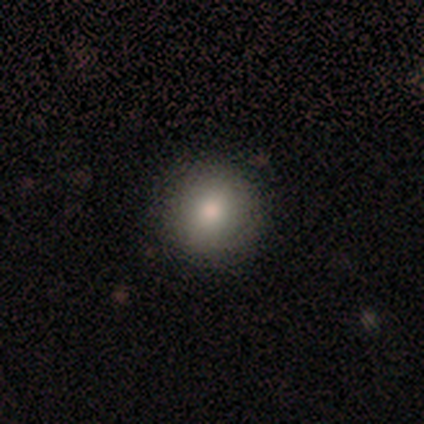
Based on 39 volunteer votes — A smooth galaxy with no disk features (85%) that is round (91%).

Vote fractions:
- Smooth or featured? smooth: 85% / featured or disk: 8% / star or artifact: 8%
- How rounded? round: 91% / in between: 9% / cigar-shaped: 0%
- Merging? none: 89% / minor disturbance: 8% / major disturbance: 3% / merger: 0%